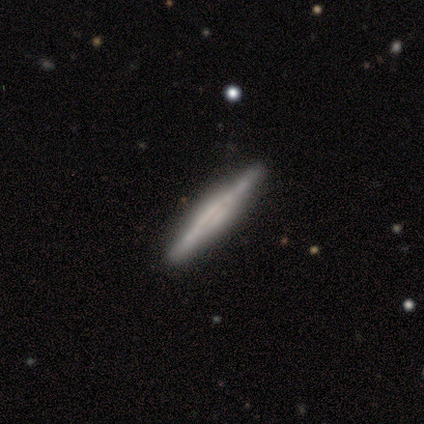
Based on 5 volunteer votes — Smooth or featured: featured or disk — 60% (smooth — 40%)
Edge-on disk: yes — 100%
Edge-on bulge: none — 67% (rounded — 33%)
Merging: none — 80% (minor disturbance — 20%)